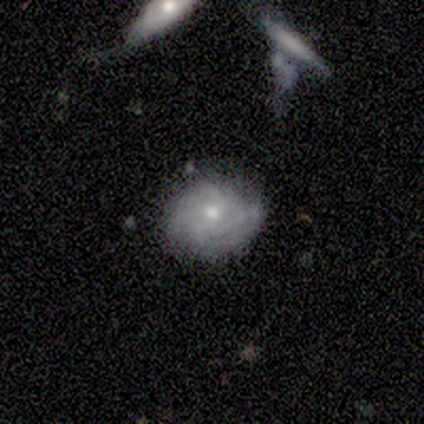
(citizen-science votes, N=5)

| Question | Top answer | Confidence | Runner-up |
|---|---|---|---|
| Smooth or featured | featured or disk | 80% | smooth (20%) |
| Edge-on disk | no | 100% | — |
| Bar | weak | 50% | tied: no (50%) |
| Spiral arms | yes | 100% | — |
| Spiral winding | tight | 75% | loose (25%) |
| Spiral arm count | can't tell | 50% | 3 (25%) |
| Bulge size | moderate | 75% | small (25%) |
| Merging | none | 80% | minor disturbance (20%) |